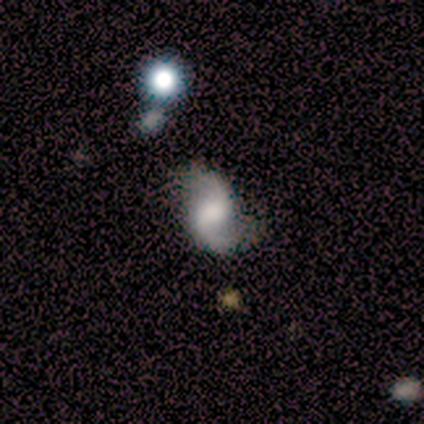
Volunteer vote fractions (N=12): Volunteers were most divided on "bulge size": large: 36%, moderate: 27%, none: 27%, small: 9%, dominant: 0%. More confident: edge-on disk — no (100%); merging — none (100%); smooth or featured — featured or disk (92%); spiral arms — yes (91%); spiral arm count — 2 (90%); bar — no (64%); spiral winding — loose (50%).